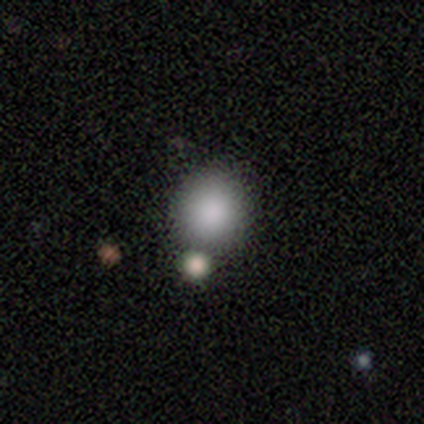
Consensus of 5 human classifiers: This is clearly a smooth galaxy (80%). How rounded: clearly round (100%). Merging: clearly none (80%).